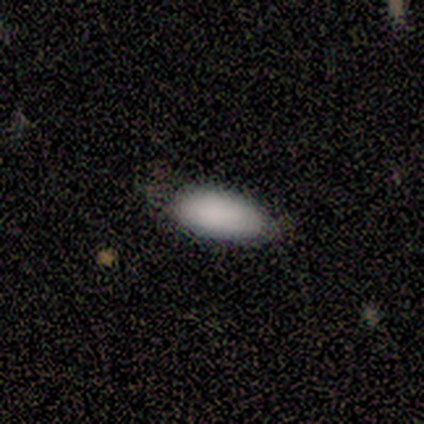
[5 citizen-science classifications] smooth 60%, star or artifact 40%, featured or disk 0%. Down the decision tree: how rounded — in between (67%); merging — none (100%).